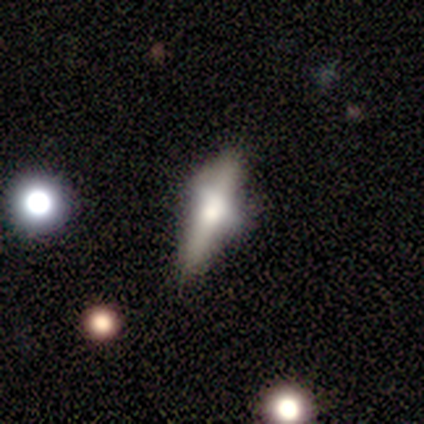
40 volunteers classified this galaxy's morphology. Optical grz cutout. It shows a featured or disk galaxy (60%) viewed edge-on (71%) with a rounded central bulge (94%). Merging: none (44%).